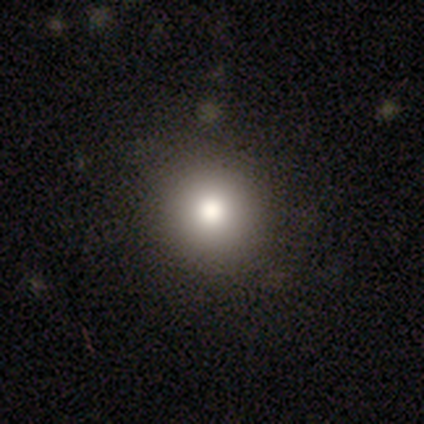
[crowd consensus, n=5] A smooth galaxy with no disk features (80%) that is round (75%).

Vote fractions:
- Smooth or featured? smooth: 80% / star or artifact: 20% / featured or disk: 0%
- How rounded? round: 75% / in between: 25% / cigar-shaped: 0%
- Merging? none: 100% / minor disturbance: 0% / major disturbance: 0% / merger: 0%